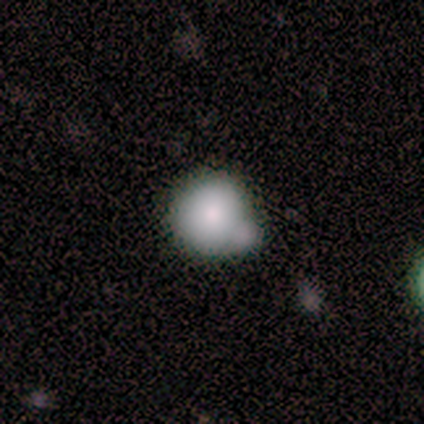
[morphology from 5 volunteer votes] Smooth or featured?
  - smooth: 100% *
  - featured or disk: 0%
  - star or artifact: 0%
How rounded?
  - round: 60% *
  - in between: 40%
  - cigar-shaped: 0%
Merging?
  - none: 40% * (tied)
  - merger: 40% * (tied)
  - major disturbance: 20%
  - minor disturbance: 0%